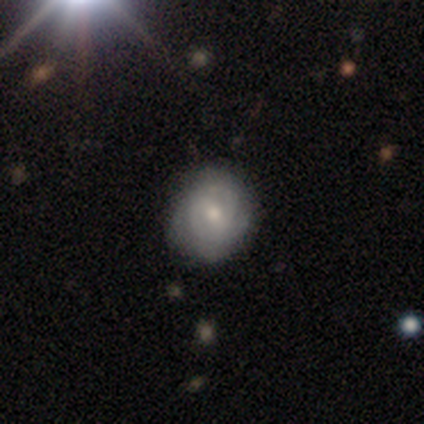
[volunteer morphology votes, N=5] Volunteers were most divided on "bar" (2-way tie): strong: 50%, no: 50%, weak: 0%; "spiral winding" (2-way tie): tight: 50%, medium: 50%, loose: 0%; "spiral arm count" (2-way tie): 2: 50%, can't tell: 50%, 1: 0%, 3: 0%, 4: 0%, more than 4: 0%; "bulge size" (2-way tie): moderate: 50%, small: 50%, dominant: 0%, large: 0%, none: 0%. More confident: edge-on disk — no (100%); spiral arms — yes (100%); merging — none (100%); smooth or featured — featured or disk (80%).